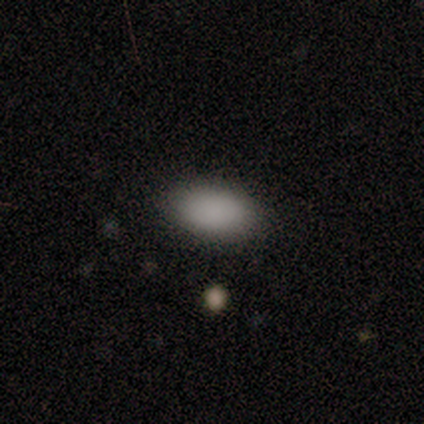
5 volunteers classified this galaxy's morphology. Smooth or featured? 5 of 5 (100%) said smooth. How rounded? 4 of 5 (80%) said in between. Merging? 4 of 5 (80%) said none.